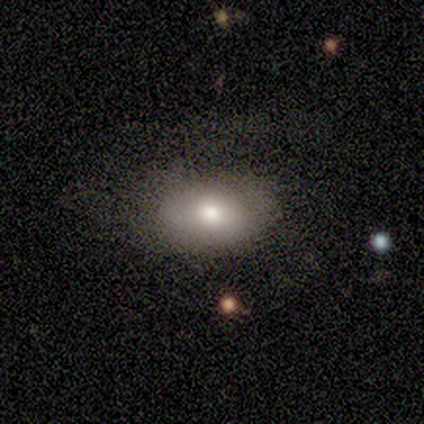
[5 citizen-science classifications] smooth 100%, featured or disk 0%, star or artifact 0%. Down the decision tree: how rounded — in between (80%); merging — none (60%).